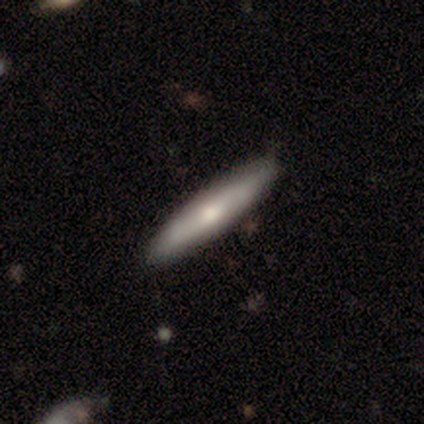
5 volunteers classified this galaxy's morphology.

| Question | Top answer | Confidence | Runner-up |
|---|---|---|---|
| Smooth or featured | smooth | 80% | featured or disk (20%) |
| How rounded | cigar-shaped | 75% | in between (25%) |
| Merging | none | 80% | minor disturbance (20%) |